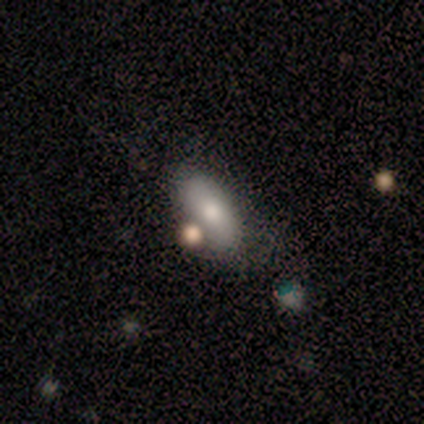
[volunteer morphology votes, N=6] This is possibly a smooth galaxy (50%). How rounded: likely in between (67%). Merging: clearly none (100%).